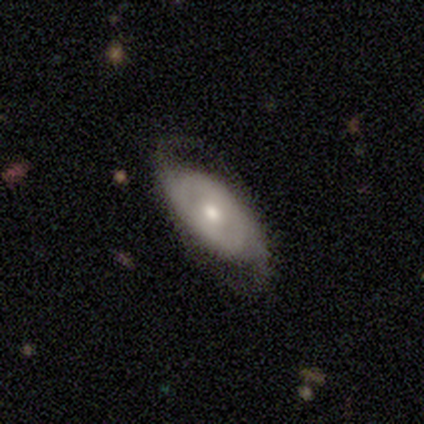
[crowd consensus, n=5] This appears to be a featured or disk galaxy (80%) with no bar (67%), 2 (67%) tight (33%, tied with medium and loose) spiral arms (100%) and a small central bulge (67%). Merging: none (75%).